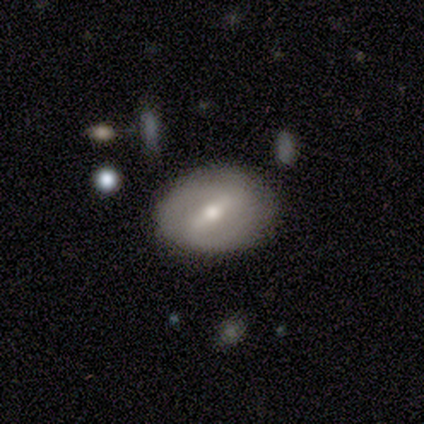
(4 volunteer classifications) Smooth or featured? smooth (50%, tied with featured or disk)
How rounded? round (50%, tied with in between)
Merging? none (100%)